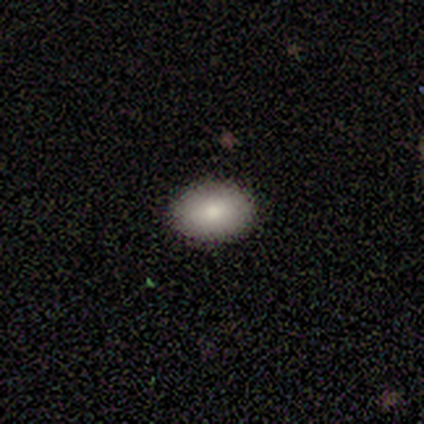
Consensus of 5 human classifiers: This appears to be a smooth galaxy with no disk features (80%) that is round (50%, tied with in between). Merging: none (100%).